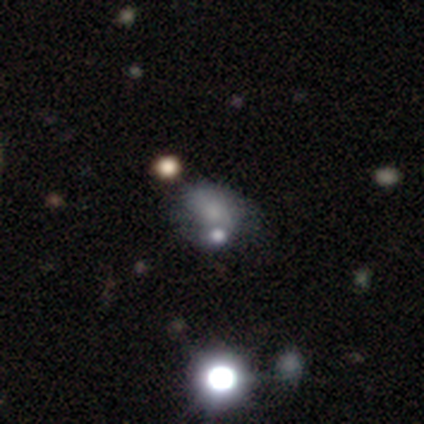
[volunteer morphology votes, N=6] Smooth or featured: smooth — 67% (featured or disk — 17%)
How rounded: in between — 75% (round — 25%)
Merging: none — 40% (tied with merger — 40%)